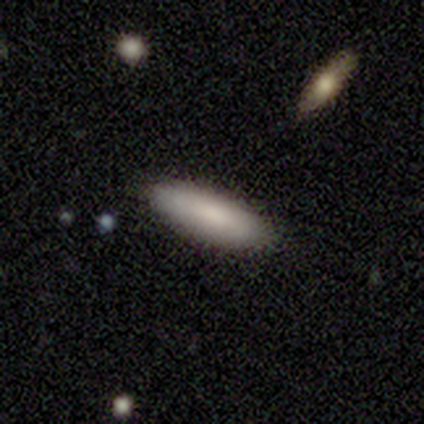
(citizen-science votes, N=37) Smooth or featured? 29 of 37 (78%) said smooth. How rounded? 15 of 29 (52%) said cigar-shaped. Merging? 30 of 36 (83%) said none.